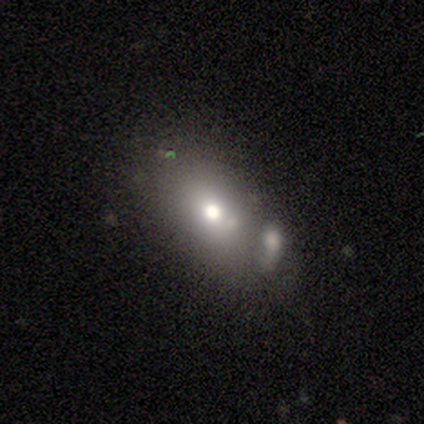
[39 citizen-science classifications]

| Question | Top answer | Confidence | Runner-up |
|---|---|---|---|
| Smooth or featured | smooth | 74% | featured or disk (18%) |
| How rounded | in between | 86% | round (10%) |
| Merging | none | 36% | merger (31%) |